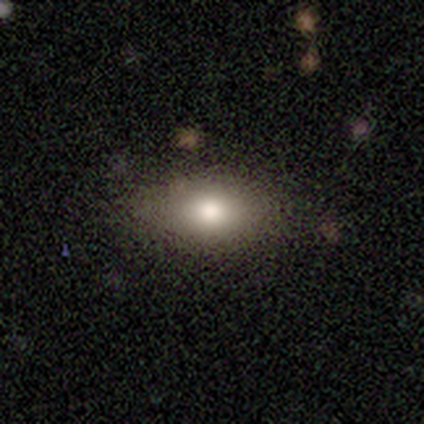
A smooth galaxy with no disk features (77%) that is in between round and cigar-shaped (80%). Merging: none (83%).